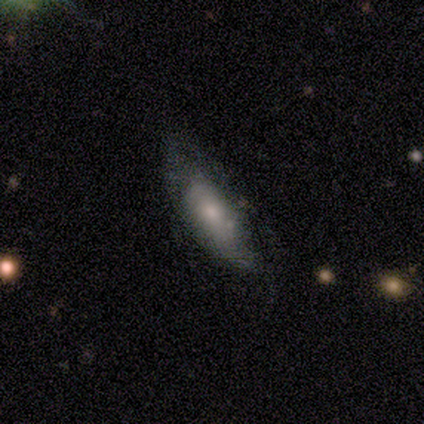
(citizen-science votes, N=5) Morphology: type=featured or disk (80%); edge-on=yes (50%, tied with no); edge-on bulge=boxy (50%, tied with rounded); merging=minor disturbance (60%).